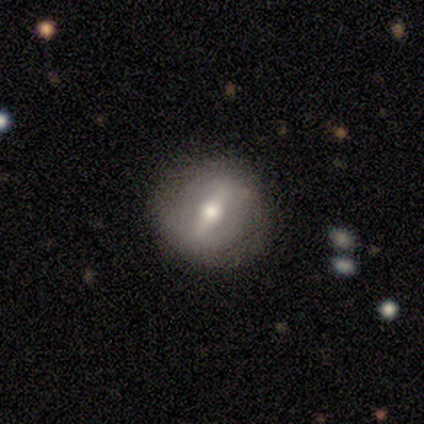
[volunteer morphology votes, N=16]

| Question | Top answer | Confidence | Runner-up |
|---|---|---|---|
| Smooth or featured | featured or disk | 88% | smooth (12%) |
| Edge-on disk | no | 79% | yes (21%) |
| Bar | strong | 82% | weak (18%) |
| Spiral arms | no | 55% | yes (45%) |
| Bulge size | moderate | 100% | — |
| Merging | none | 94% | minor disturbance (6%) |